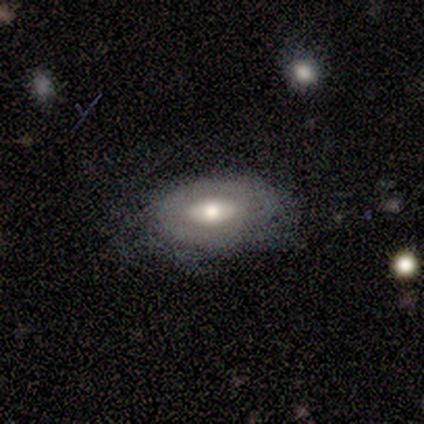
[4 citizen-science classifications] Volunteers were most divided on "bar": no: 67%, weak: 33%, strong: 0%. More confident: smooth or featured — featured or disk (100%); edge-on disk — no (75%); merging — none (75%); spiral arms — no (67%); bulge size — moderate (67%).